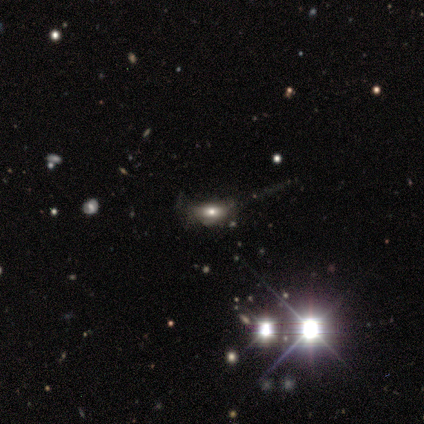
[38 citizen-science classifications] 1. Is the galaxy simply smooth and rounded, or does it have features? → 39% featured or disk, 32% star or artifact, 29% smooth.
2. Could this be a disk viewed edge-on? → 87% no, 13% yes.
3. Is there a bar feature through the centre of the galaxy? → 85% no, 15% weak, 0% strong.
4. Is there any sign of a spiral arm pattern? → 77% no, 23% yes.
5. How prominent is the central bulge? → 77% moderate, 23% large, 0% dominant, 0% small, 0% none.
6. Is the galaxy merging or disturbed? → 35% minor disturbance, 31% none, 31% major disturbance, 4% merger.